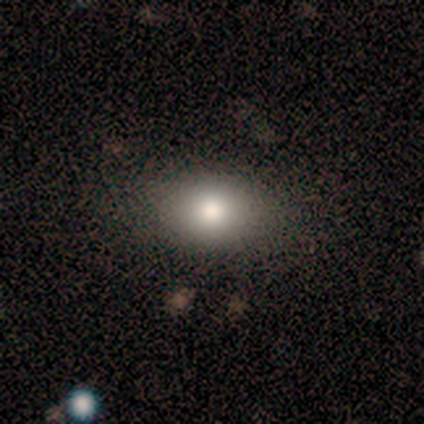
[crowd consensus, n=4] Smooth or featured: smooth — 100%
How rounded: round — 75% (in between — 25%)
Merging: none — 75% (minor disturbance — 25%)